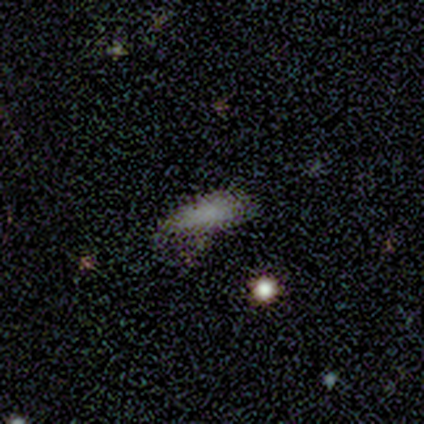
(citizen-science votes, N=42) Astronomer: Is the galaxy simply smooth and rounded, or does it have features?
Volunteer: smooth — 79%.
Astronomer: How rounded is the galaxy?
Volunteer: in between — 52% (runner-up: cigar-shaped, 42%).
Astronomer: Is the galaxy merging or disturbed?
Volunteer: none — 62%.